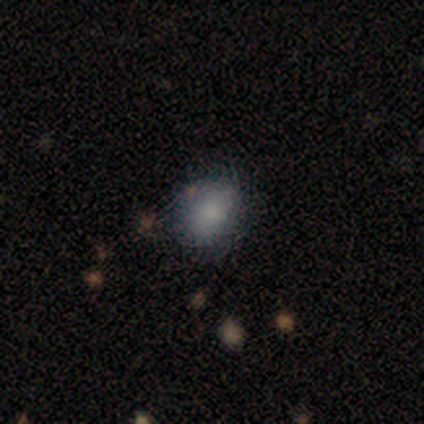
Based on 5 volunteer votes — A smooth galaxy with no disk features (100%) that is in between round and cigar-shaped (80%).

Vote fractions:
- Smooth or featured? smooth: 100% / featured or disk: 0% / star or artifact: 0%
- How rounded? in between: 80% / round: 20% / cigar-shaped: 0%
- Merging? none: 40% (tied) / minor disturbance: 40% (tied) / major disturbance: 20% / merger: 0%